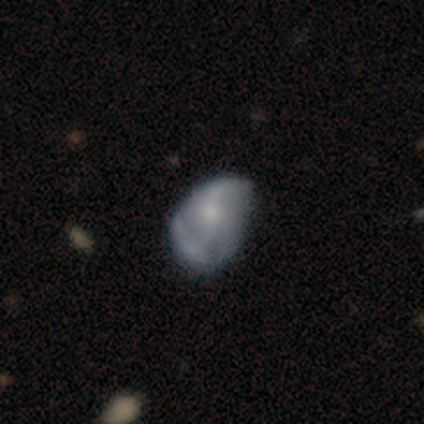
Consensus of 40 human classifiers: Smooth or featured?
  - featured or disk: 68% *
  - smooth: 25%
  - star or artifact: 8%
Edge-on disk?
  - no: 96% *
  - yes: 4%
Bar?
  - no: 65% *
  - weak: 31%
  - strong: 4%
Spiral arms?
  - yes: 58% *
  - no: 42%
Spiral winding?
  - loose: 73% *
  - tight: 13%
  - medium: 13%
Spiral arm count?
  - 2: 53% *
  - can't tell: 27%
  - 1: 13%
  - 3: 7%
  - 4: 0%
  - more than 4: 0%
Bulge size?
  - moderate: 38% *
  - small: 35%
  - none: 23%
  - large: 4%
  - dominant: 0%
Merging?
  - minor disturbance: 24% *
  - major disturbance: 22%
  - none: 8%
  - merger: 8%